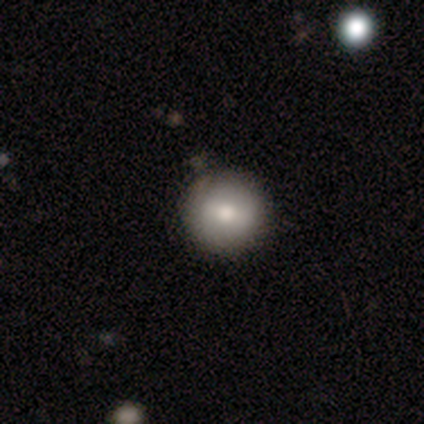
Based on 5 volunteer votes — Smooth or featured? smooth (80%)
How rounded? round (100%)
Merging? none (100%)